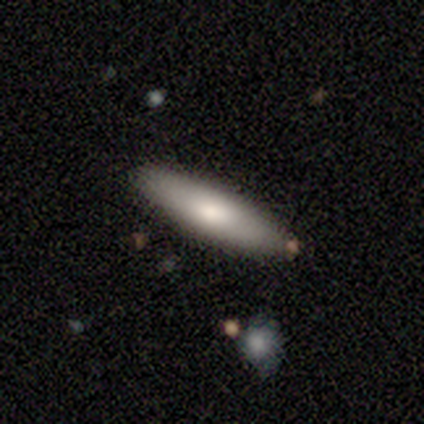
smooth 75%, featured or disk 25%, star or artifact 0%. Down the decision tree: how rounded — cigar-shaped (67%); merging — none (75%).